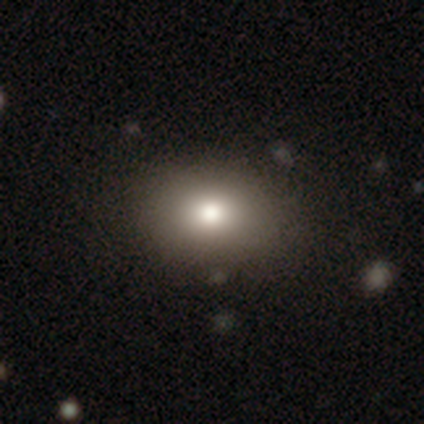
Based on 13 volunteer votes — Overall: smooth (69%). How rounded: in between (56%; round 44%). Merging: none (91%).